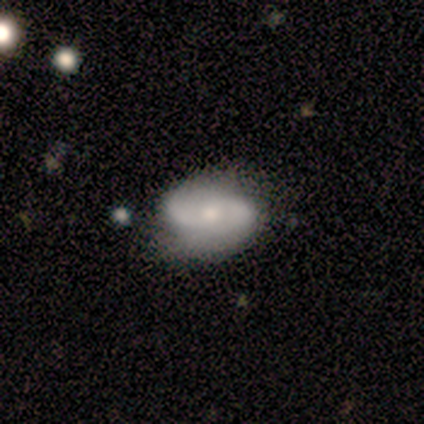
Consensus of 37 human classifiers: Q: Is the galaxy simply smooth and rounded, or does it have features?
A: featured or disk — 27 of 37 (73%).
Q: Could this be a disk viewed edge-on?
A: no — 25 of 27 (93%).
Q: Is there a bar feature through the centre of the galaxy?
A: no — 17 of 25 (68%).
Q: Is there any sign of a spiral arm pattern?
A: yes — 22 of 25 (88%).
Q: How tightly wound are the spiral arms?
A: loose — 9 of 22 (41%).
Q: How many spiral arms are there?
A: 2 — 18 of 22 (82%).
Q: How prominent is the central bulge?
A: moderate — 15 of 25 (60%).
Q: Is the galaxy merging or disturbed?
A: none — 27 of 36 (75%).